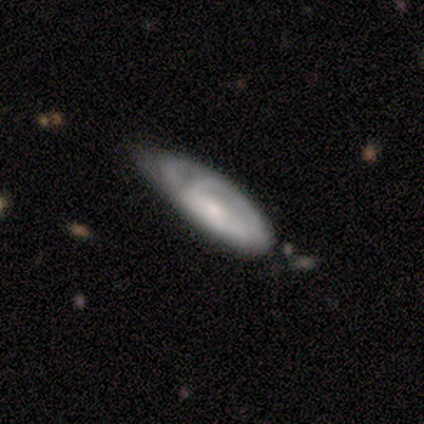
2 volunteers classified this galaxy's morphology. A smooth galaxy with no disk features (50%, tied with featured or disk) that is cigar-shaped (100%).

Vote fractions:
- Smooth or featured? smooth: 50% (tied) / featured or disk: 50% (tied) / star or artifact: 0%
- How rounded? cigar-shaped: 100% / round: 0% / in between: 0%
- Merging? minor disturbance: 50% (tied) / major disturbance: 50% (tied) / none: 0% / merger: 0%